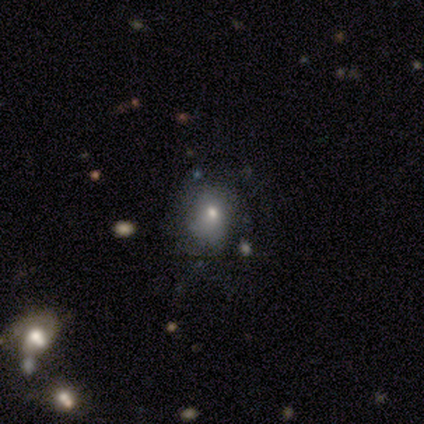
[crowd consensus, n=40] Volunteers were most divided on "merging": none: 59%, minor disturbance: 27%, major disturbance: 11%, merger: 3%. More confident: how rounded — round (68%); smooth or featured — smooth (62%).